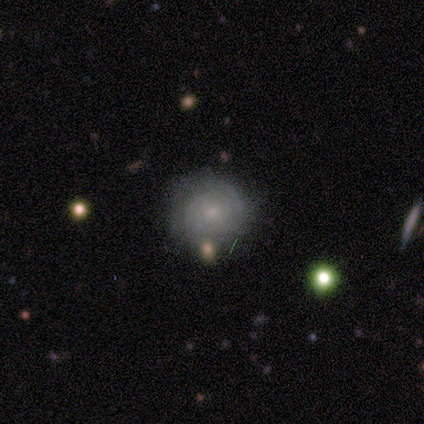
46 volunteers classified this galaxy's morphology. Q: Smooth or featured?
A: featured or disk (59%); runner-up: smooth (35%)
Q: Edge-on disk?
A: no (100%)
Q: Bar?
A: no (81%); runner-up: weak (19%)
Q: Spiral arms?
A: yes (85%); runner-up: no (15%)
Q: Spiral winding?
A: tight (74%); runner-up: medium (22%)
Q: Spiral arm count?
A: can't tell (78%); runner-up: 2 (17%)
Q: Bulge size?
A: small (59%); runner-up: moderate (37%)
Q: Merging?
A: none (72%); runner-up: minor disturbance (16%)